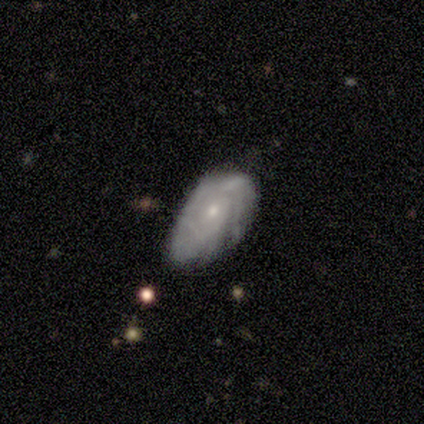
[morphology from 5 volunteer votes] A featured or disk galaxy (60%) with no bar (100%), medium (67%) spiral arms (100%) and a moderate central bulge (67%). Merging: minor disturbance (40%, tied with merger).